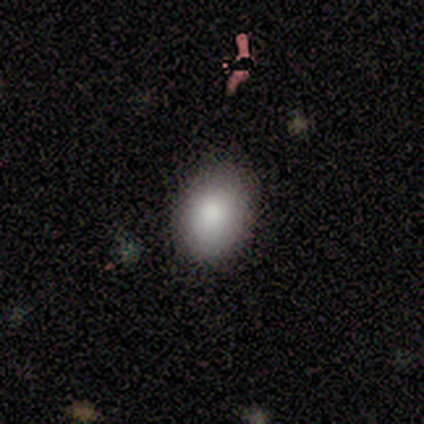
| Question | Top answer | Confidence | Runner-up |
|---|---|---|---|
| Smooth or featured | smooth | 100% | — |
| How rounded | in between | 80% | round (20%) |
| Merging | minor disturbance | 60% | none (40%) |